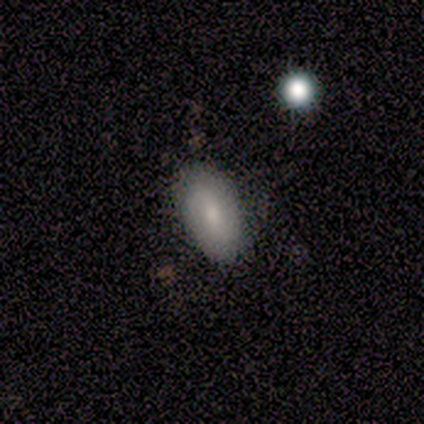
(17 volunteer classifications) This appears to be a smooth galaxy with no disk features (59%) that is in between round and cigar-shaped (80%). Merging: none (81%).